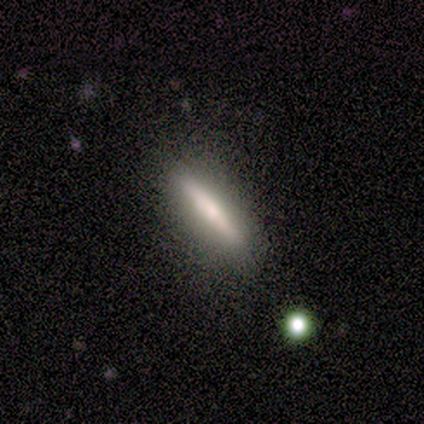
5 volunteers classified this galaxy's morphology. This appears to be a featured or disk galaxy (80%) viewed edge-on (100%) with no central bulge (75%). Merging: none (100%).